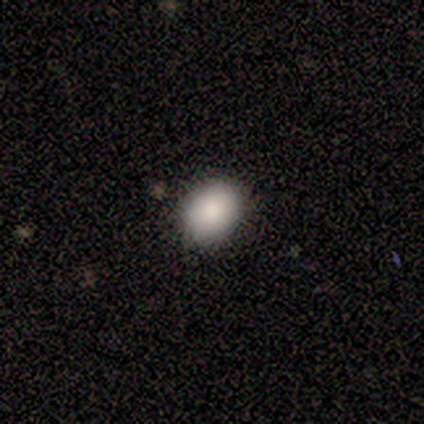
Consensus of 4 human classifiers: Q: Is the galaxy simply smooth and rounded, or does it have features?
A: smooth — 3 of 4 (75%).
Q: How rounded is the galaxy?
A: round — 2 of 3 (67%).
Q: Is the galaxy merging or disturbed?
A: none — 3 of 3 (100%).